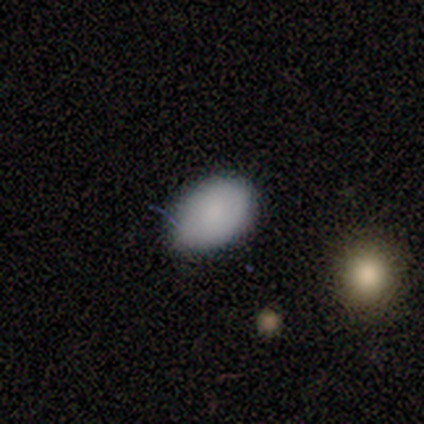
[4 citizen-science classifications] smooth-or-featured: smooth: 100% | featured or disk: 0% | star or artifact: 0%
  how-rounded: in between: 75% | round: 25% | cigar-shaped: 0%
  merging: none: 100% | minor disturbance: 0% | major disturbance: 0% | merger: 0%